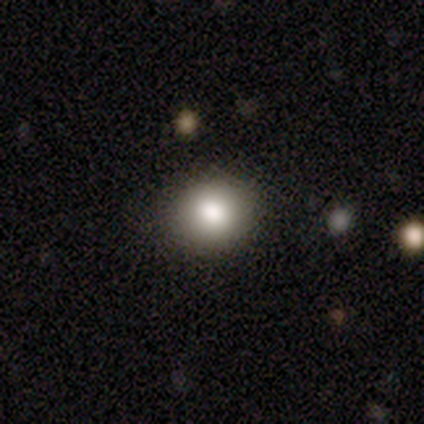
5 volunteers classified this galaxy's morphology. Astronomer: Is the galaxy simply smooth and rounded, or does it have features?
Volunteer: featured or disk — 40%, tied with star or artifact at 40%.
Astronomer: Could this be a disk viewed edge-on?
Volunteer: no — 100%.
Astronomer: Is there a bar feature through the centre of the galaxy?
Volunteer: strong — 50%, tied with no at 50%.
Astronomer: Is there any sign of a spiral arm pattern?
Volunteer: yes — 50%, tied with no at 50%.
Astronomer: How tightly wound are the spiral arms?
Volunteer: medium — 100%.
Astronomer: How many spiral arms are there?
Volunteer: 3 — 100%.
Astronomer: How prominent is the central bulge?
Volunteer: dominant — 50%, tied with small at 50%.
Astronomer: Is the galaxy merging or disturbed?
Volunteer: none — 67%.